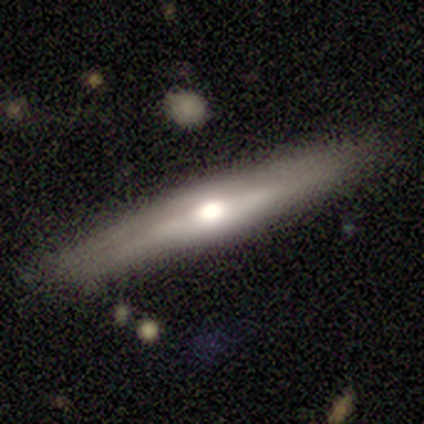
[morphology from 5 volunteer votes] smooth_or_featured: featured or disk (p=0.80) [alt: smooth p=0.20]
disk_edge_on: yes (p=1.00)
edge_on_bulge: rounded (p=0.75) [alt: none p=0.25]
merging: none (p=0.80) [alt: minor disturbance p=0.20]